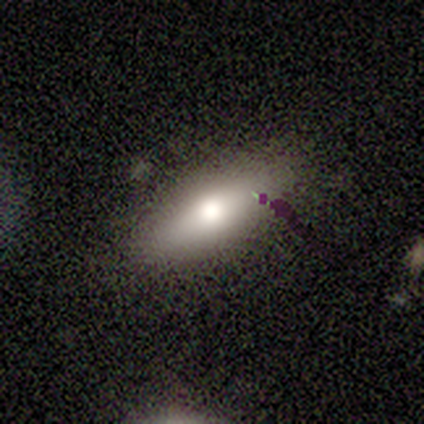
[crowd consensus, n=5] Q: Smooth or featured?
A: smooth (60%); runner-up: featured or disk (40%)
Q: How rounded?
A: in between (67%); runner-up: cigar-shaped (33%)
Q: Merging?
A: none (80%); runner-up: minor disturbance (20%)